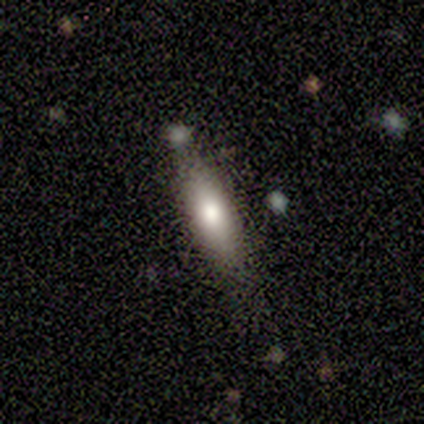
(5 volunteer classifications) Smooth or featured? smooth (60%)
How rounded? cigar-shaped (67%)
Merging? none (75%)